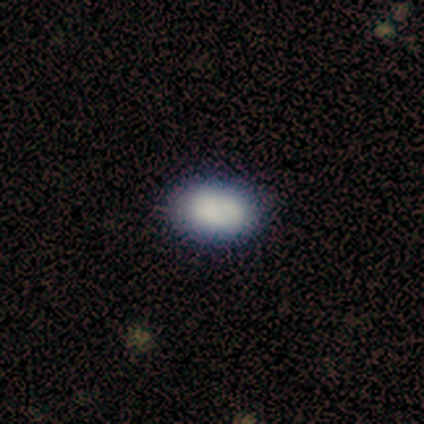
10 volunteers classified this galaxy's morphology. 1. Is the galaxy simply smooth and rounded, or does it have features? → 90% smooth, 10% star or artifact, 0% featured or disk.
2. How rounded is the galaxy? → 100% in between, 0% round, 0% cigar-shaped.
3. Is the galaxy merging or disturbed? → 100% none, 0% minor disturbance, 0% major disturbance, 0% merger.